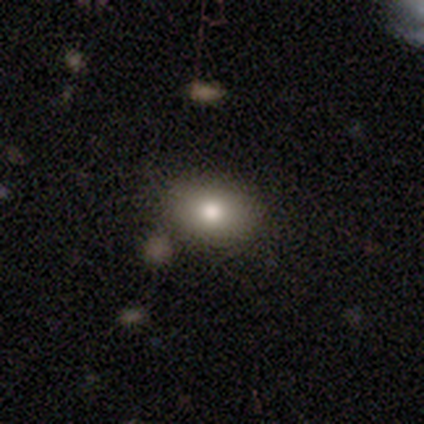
This is likely a smooth galaxy (77%). How rounded: clearly in between (83%). Merging: likely none (75%).